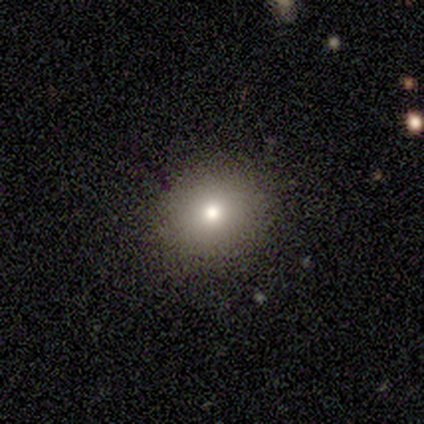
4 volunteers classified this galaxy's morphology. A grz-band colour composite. It shows a smooth galaxy with no disk features (75%) that is round (67%). Merging: none (100%).